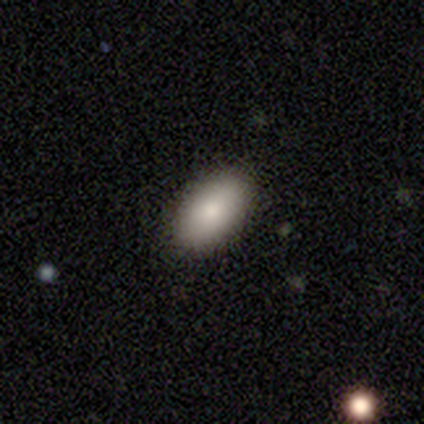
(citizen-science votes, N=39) Smooth or featured: smooth — 90% (featured or disk — 8%)
How rounded: in between — 94% (round — 3%)
Merging: none — 87% (minor disturbance — 11%)